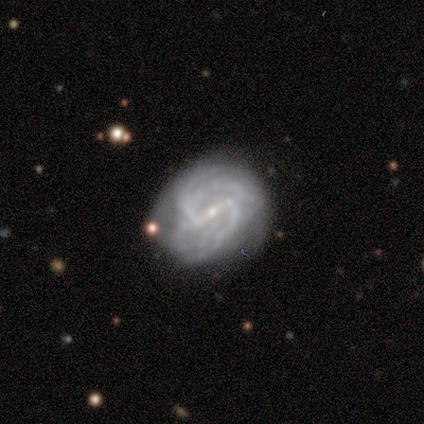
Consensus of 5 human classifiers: Smooth or featured: featured or disk — 60% (smooth — 20%)
Edge-on disk: no — 100%
Bar: strong — 67% (no — 33%)
Spiral arms: yes — 100%
Spiral winding: tight — 100%
Spiral arm count: 2 — 33% (tied with 3 — 33%; more than 4 — 33%)
Bulge size: small — 67% (none — 33%)
Merging: none — 50% (major disturbance — 25%)